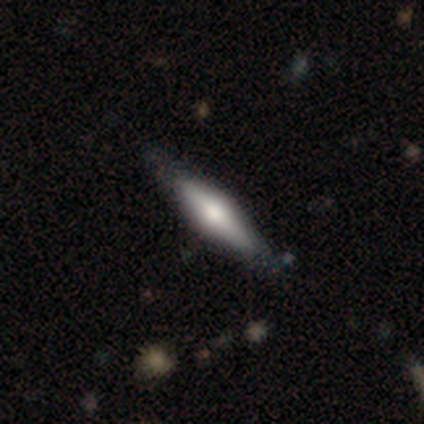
Smooth or featured? 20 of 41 (49%) said featured or disk. Edge-on disk? 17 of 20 (85%) said yes. Edge-on bulge? 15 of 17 (88%) said rounded. Merging? 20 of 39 (51%) said none.